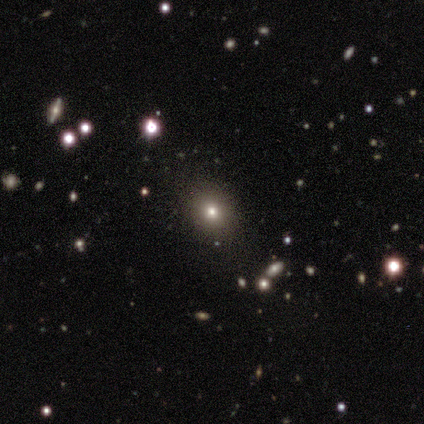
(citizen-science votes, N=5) Volunteers were most divided on "how rounded" (2-way tie): round: 50%, in between: 50%, cigar-shaped: 0%. More confident: smooth or featured — smooth (80%); merging — none (75%).